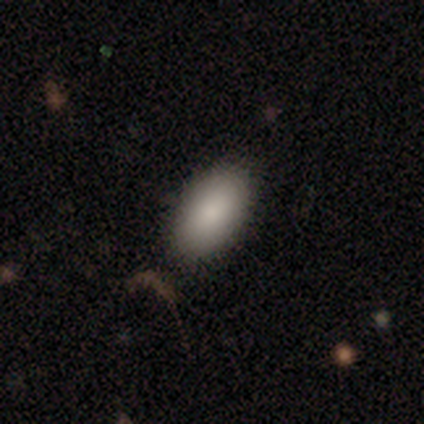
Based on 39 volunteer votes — A smooth galaxy with no disk features (90%) that is in between round and cigar-shaped (94%).

Vote fractions:
- Smooth or featured? smooth: 90% / featured or disk: 5% / star or artifact: 5%
- How rounded? in between: 94% / cigar-shaped: 6% / round: 0%
- Merging? none: 84% / minor disturbance: 16% / major disturbance: 0% / merger: 0%